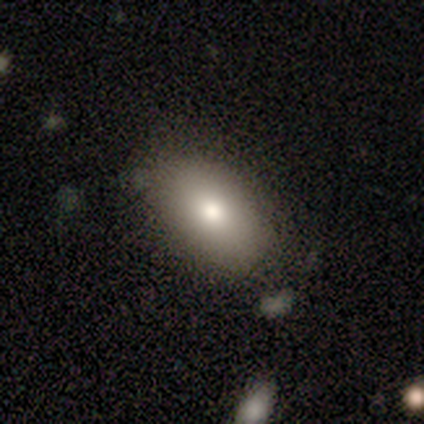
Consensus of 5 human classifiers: smooth_or_featured: smooth (p=0.80) [alt: star or artifact p=0.20]
how_rounded: in between (p=1.00)
merging: none (p=0.75) [alt: minor disturbance p=0.25]